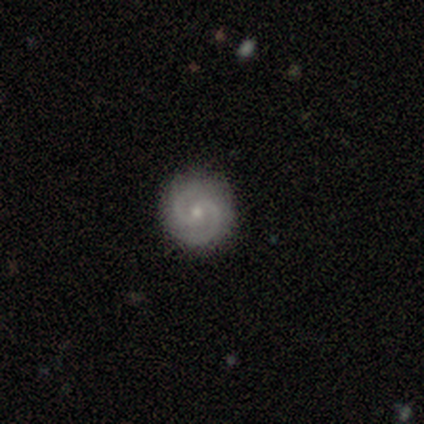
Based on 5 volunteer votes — A featured or disk galaxy (100%) with no bar (60%), 2 (100%) medium (80%) spiral arms (100%) and a small central bulge (60%).

Vote fractions:
- Smooth or featured? featured or disk: 100% / smooth: 0% / star or artifact: 0%
- Edge-on disk? no: 100% / yes: 0%
- Bar? no: 60% / weak: 40% / strong: 0%
- Spiral arms? yes: 100% / no: 0%
- Spiral winding? medium: 80% / tight: 20% / loose: 0%
- Spiral arm count? 2: 100% / 1: 0% / 3: 0% / 4: 0% / more than 4: 0% / can't tell: 0%
- Bulge size? small: 60% / moderate: 40% / dominant: 0% / large: 0% / none: 0%
- Merging? none: 100% / minor disturbance: 0% / major disturbance: 0% / merger: 0%